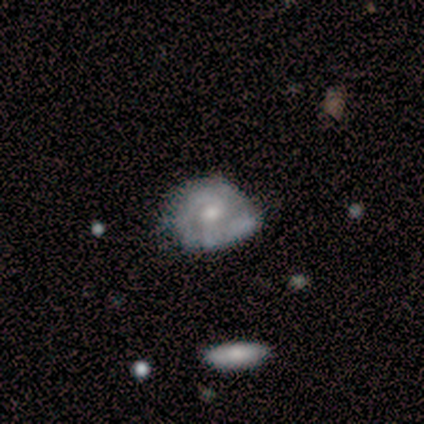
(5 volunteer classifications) Smooth or featured? featured or disk (80%)
Edge-on disk? no (100%)
Bar? no (75%)
Spiral arms? yes (50%, tied with no)
Spiral winding? tight (50%, tied with medium)
Spiral arm count? can't tell (100%)
Bulge size? small (75%)
Merging? none (50%)